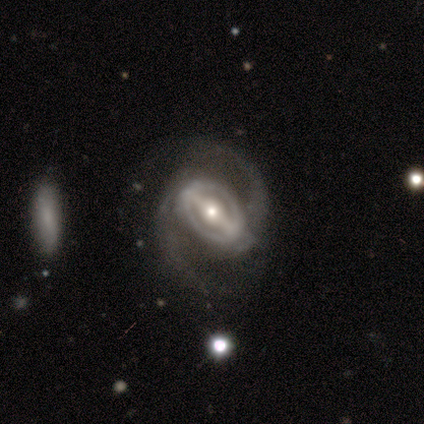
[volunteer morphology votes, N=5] Volunteers were most divided on "spiral winding": medium: 60%, tight: 20%, loose: 20%. More confident: smooth or featured — featured or disk (100%); edge-on disk — no (100%); spiral arms — yes (100%); spiral arm count — 2 (100%); bar — strong (80%); bulge size — moderate (80%); merging — none (80%).